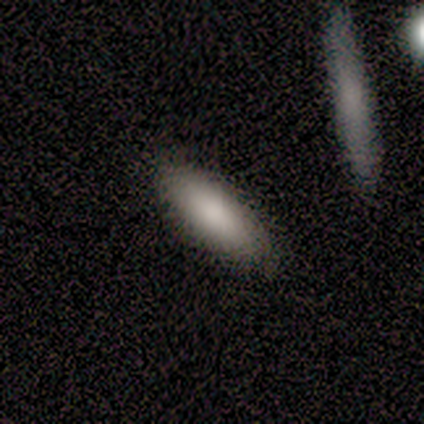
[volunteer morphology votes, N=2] Smooth or featured: smooth — 100%
How rounded: in between — 100%
Merging: none — 100%